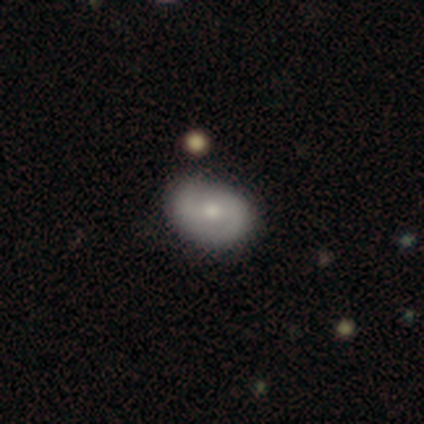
smooth-or-featured: smooth: 60% | featured or disk: 40% | star or artifact: 0%
  how-rounded: in between: 100% | round: 0% | cigar-shaped: 0%
  merging: none: 70% | minor disturbance: 20% | merger: 10% | major disturbance: 0%